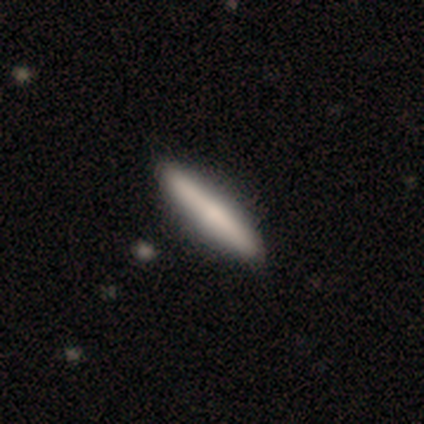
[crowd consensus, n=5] This is clearly a smooth galaxy (80%). How rounded: clearly cigar-shaped (100%). Merging: clearly none (100%).